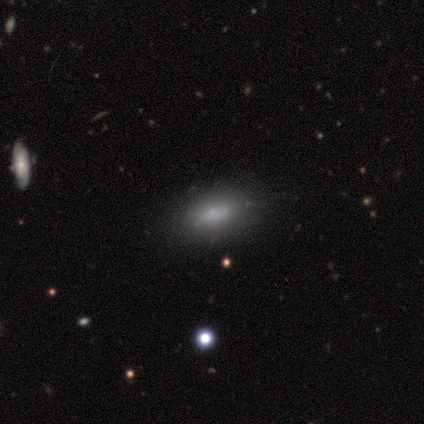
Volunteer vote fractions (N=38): Smooth or featured?
  - smooth: 63% *
  - featured or disk: 26%
  - star or artifact: 11%
How rounded?
  - in between: 83% *
  - cigar-shaped: 12%
  - round: 4%
Merging?
  - none: 56% *
  - minor disturbance: 12%
  - major disturbance: 3%
  - merger: 3%